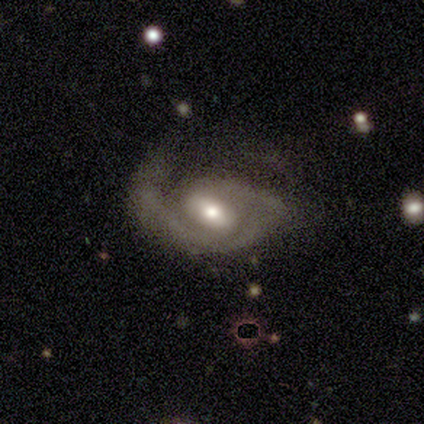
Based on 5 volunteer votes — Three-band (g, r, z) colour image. It shows a featured or disk galaxy (100%) with a strong bar (50%), 1 (50%, tied with 2) medium (75%) spiral arms (100%) and a large central bulge (50%, tied with small). Merging: minor disturbance (40%, tied with major disturbance).